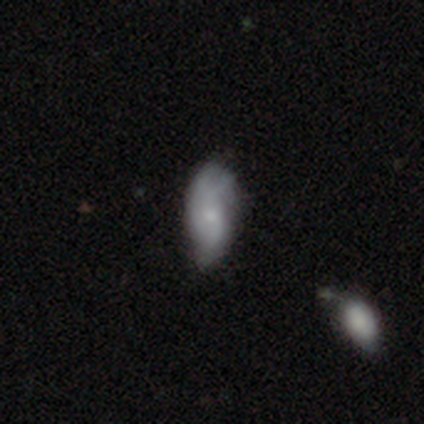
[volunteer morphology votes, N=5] Smooth or featured?
  - smooth: 60% *
  - featured or disk: 40%
  - star or artifact: 0%
How rounded?
  - in between: 100% *
  - round: 0%
  - cigar-shaped: 0%
Merging?
  - minor disturbance: 60% *
  - none: 40%
  - major disturbance: 0%
  - merger: 0%